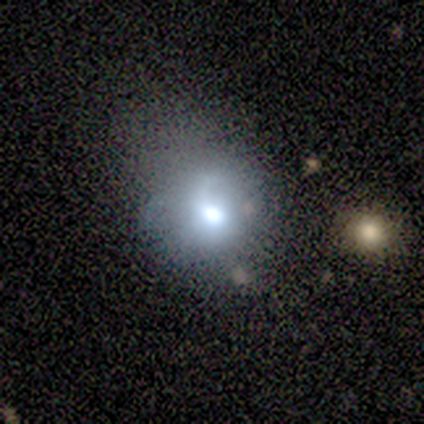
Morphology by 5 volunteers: Smooth or featured?
  - smooth: 60% *
  - featured or disk: 20%
  - star or artifact: 20%
How rounded?
  - in between: 67% *
  - round: 33%
  - cigar-shaped: 0%
Merging?
  - major disturbance: 50% *
  - none: 25%
  - minor disturbance: 25%
  - merger: 0%